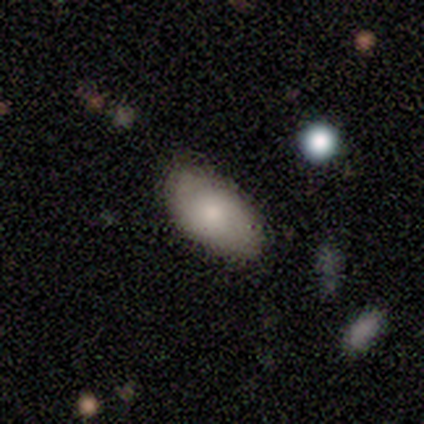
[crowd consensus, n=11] smooth 55%, featured or disk 27%, star or artifact 18%. Down the decision tree: how rounded — in between (100%); merging — none (89%).